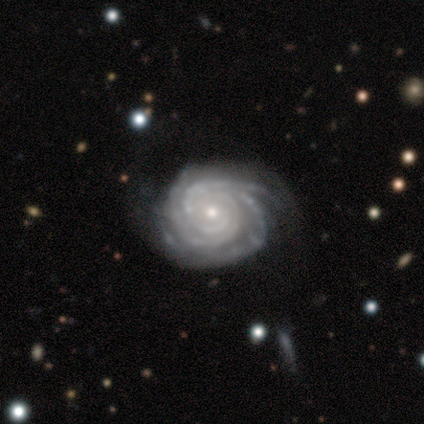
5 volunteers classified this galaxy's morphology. featured or disk 100%, smooth 0%, star or artifact 0%. Down the decision tree: edge-on disk — no (100%); bar — no (100%); spiral arms — yes (100%); spiral arm count — 3 (80%); spiral winding — tight (100%); bulge size — small (80%); merging — minor disturbance (60%).